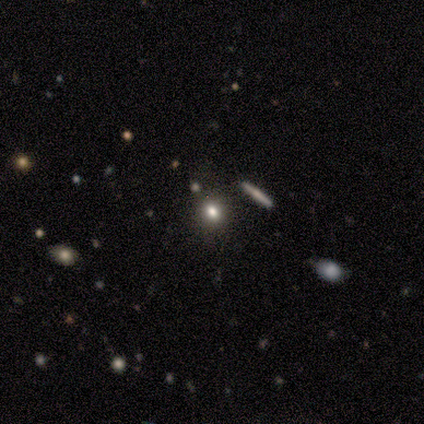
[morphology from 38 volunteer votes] smooth_or_featured: smooth (p=0.74) [alt: star or artifact p=0.16]
how_rounded: round (p=0.71) [alt: in between p=0.29]
merging: none (p=0.78) [alt: minor disturbance p=0.19]